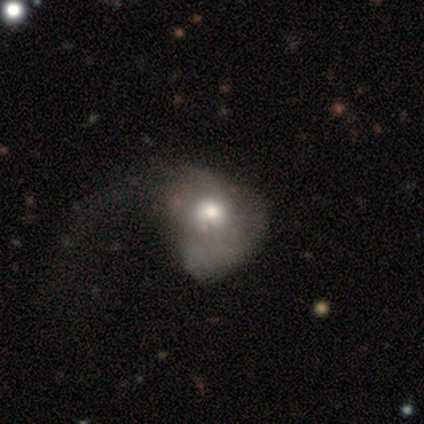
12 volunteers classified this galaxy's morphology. Smooth or featured: featured or disk — 50% (smooth — 42%)
Edge-on disk: no — 100%
Bar: no — 100%
Spiral arms: yes — 50% (tied with no — 50%)
Spiral winding: loose — 67% (medium — 33%)
Spiral arm count: 1 — 33% (tied with 2 — 33%; can't tell — 33%)
Bulge size: moderate — 67% (large — 17%)
Merging: major disturbance — 73% (none — 18%)